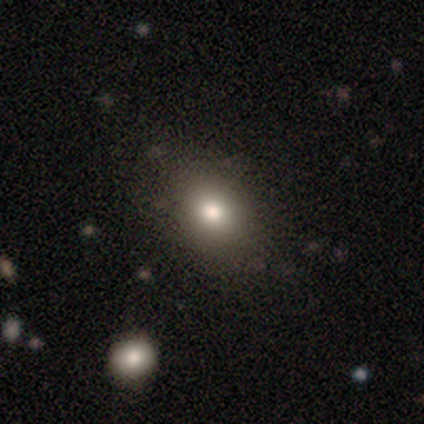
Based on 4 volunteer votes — A smooth galaxy with no disk features (100%) that is round (50%, tied with in between).

Vote fractions:
- Smooth or featured? smooth: 100% / featured or disk: 0% / star or artifact: 0%
- How rounded? round: 50% (tied) / in between: 50% (tied) / cigar-shaped: 0%
- Merging? none: 75% / minor disturbance: 25% / major disturbance: 0% / merger: 0%